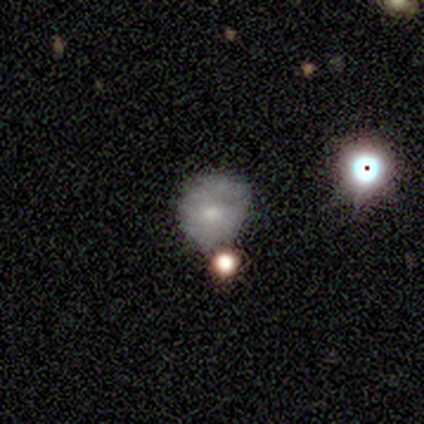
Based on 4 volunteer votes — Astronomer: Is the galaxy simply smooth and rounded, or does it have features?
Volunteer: featured or disk — 75%.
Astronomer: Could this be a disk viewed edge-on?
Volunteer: no — 100%.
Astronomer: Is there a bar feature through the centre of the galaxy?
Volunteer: no — 100%.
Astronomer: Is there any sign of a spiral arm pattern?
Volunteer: no — 100%.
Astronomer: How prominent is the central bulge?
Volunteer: moderate — 100%.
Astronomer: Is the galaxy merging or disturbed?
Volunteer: none — 50%.